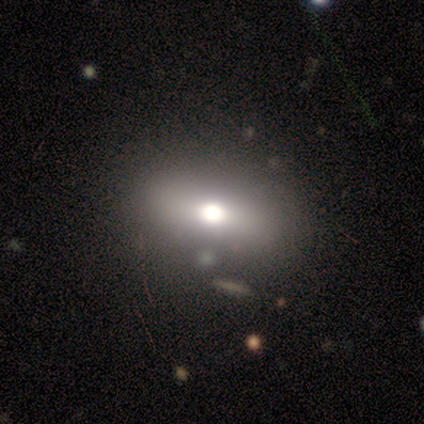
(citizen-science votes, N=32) A smooth galaxy with no disk features (75%) that is in between round and cigar-shaped (79%).

Vote fractions:
- Smooth or featured? smooth: 75% / featured or disk: 12% / star or artifact: 12%
- How rounded? in between: 79% / round: 21% / cigar-shaped: 0%
- Merging? merger: 25% / none: 21% / minor disturbance: 7% / major disturbance: 0%